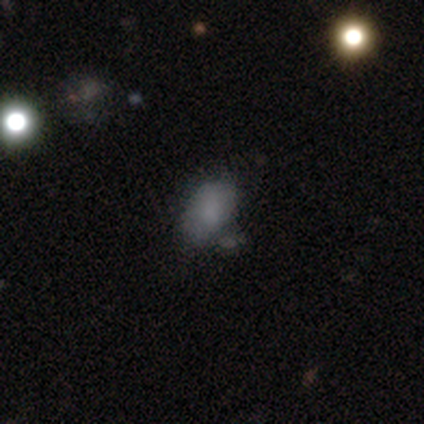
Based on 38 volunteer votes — This appears to be a smooth galaxy with no disk features (82%) that is in between round and cigar-shaped (90%). Merging: none (56%).